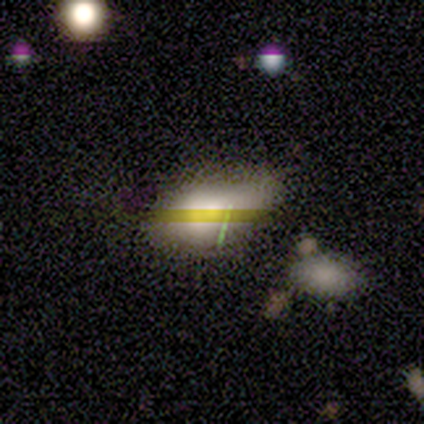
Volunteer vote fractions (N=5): smooth-or-featured: smooth: 80% | featured or disk: 20% | star or artifact: 0%
  how-rounded: in between: 100% | round: 0% | cigar-shaped: 0%
  merging: minor disturbance: 60% | none: 40% | major disturbance: 0% | merger: 0%